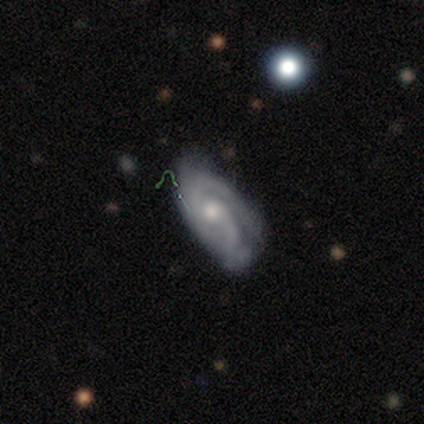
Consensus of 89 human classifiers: Q: Smooth or featured?
A: featured or disk (87%); runner-up: smooth (8%)
Q: Edge-on disk?
A: no (88%); runner-up: yes (12%)
Q: Bar?
A: no (63%); runner-up: weak (34%)
Q: Spiral arms?
A: yes (94%); runner-up: no (6%)
Q: Spiral winding?
A: tight (44%); runner-up: medium (39%)
Q: Spiral arm count?
A: 2 (72%); runner-up: can't tell (16%)
Q: Bulge size?
A: moderate (63%); runner-up: small (32%)
Q: Merging?
A: none (52%); runner-up: minor disturbance (33%)